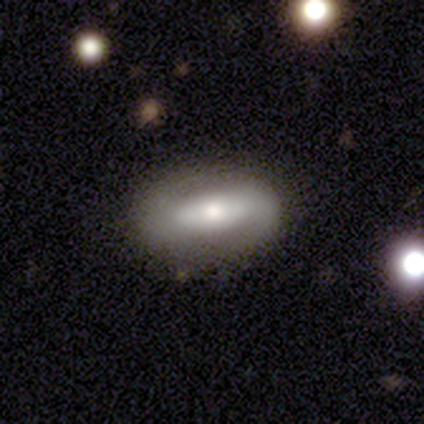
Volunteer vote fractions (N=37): This appears to be a featured or disk galaxy (57%) with a strong bar (50%), 2 (85%) medium (54%) spiral arms (72%) and a moderate central bulge (50%). Merging: none (89%).